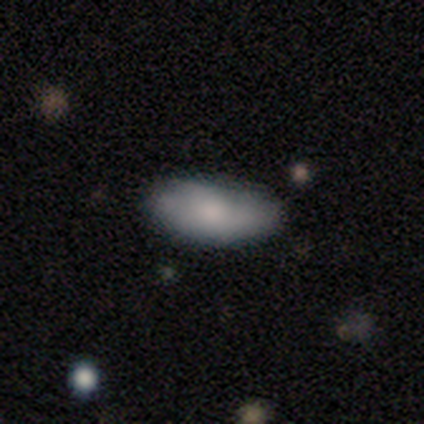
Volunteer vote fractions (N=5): This appears to be a smooth galaxy with no disk features (80%) that is in between round and cigar-shaped (100%). Merging: none (80%).